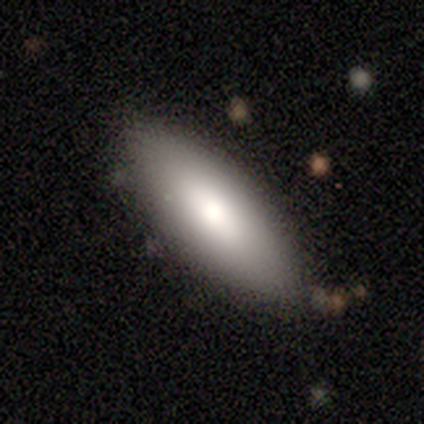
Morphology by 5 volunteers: Smooth or featured? smooth (60%)
How rounded? in between (100%)
Merging? none (100%)